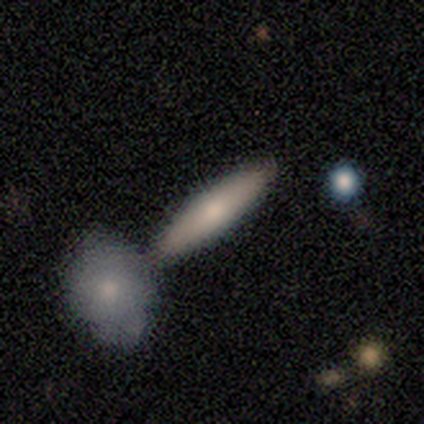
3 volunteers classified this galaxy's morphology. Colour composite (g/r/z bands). It shows a smooth galaxy with no disk features (100%) that is cigar-shaped (100%). Merging: none (67%).